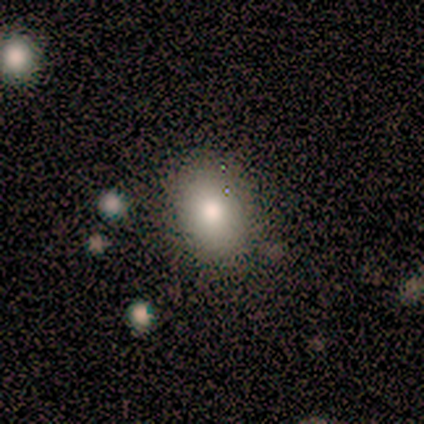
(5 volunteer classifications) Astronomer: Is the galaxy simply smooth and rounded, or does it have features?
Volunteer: smooth — 80%.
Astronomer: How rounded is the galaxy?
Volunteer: in between — 100%.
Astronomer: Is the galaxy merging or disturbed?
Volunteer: none — 100%.